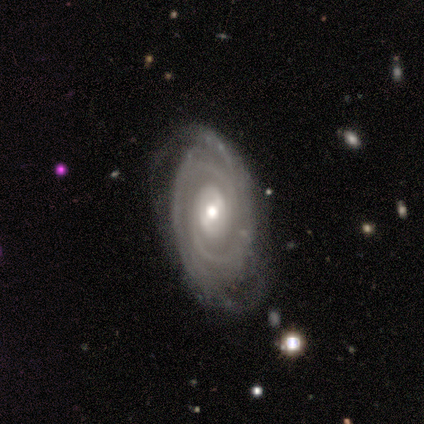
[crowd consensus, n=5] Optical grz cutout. It shows a featured or disk galaxy (100%) with a weak bar (60%), tight (100%) spiral arms (80%) and a moderate central bulge (40%, tied with small). Merging: none (60%).